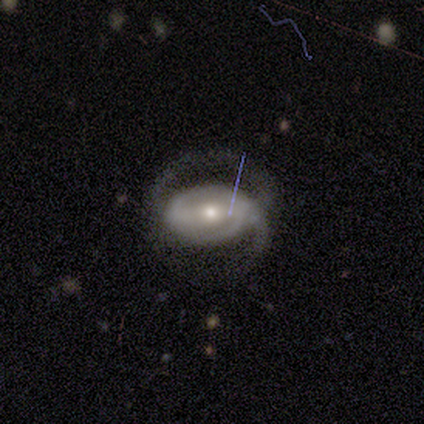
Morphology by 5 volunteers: This appears to be a featured or disk galaxy (80%) with a weak bar (75%), 2 (67%) medium (67%) spiral arms (75%) and a small central bulge (75%). Merging: none (75%).